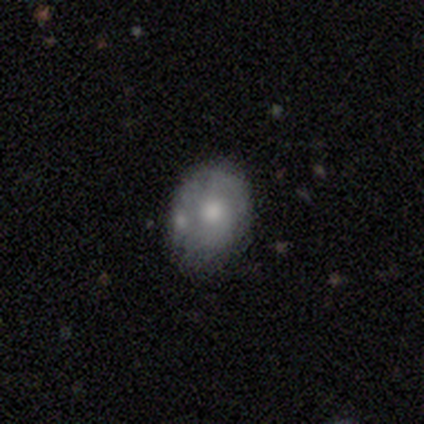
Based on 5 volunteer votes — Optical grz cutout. It shows a smooth galaxy with no disk features (80%) that is round (50%, tied with in between). Merging: none (40%, tied with minor disturbance).